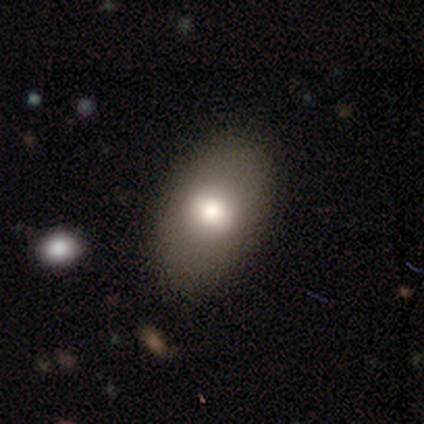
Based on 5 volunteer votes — smooth 60%, featured or disk 20%, star or artifact 20%. Down the decision tree: how rounded — in between (100%); merging — none (100%).